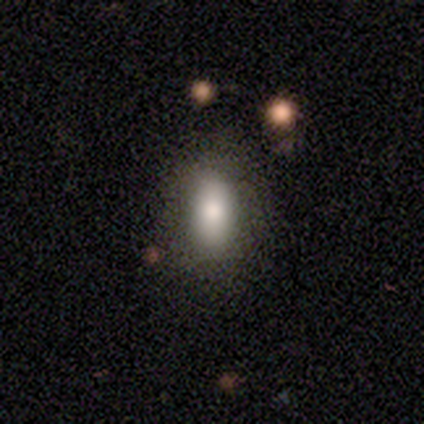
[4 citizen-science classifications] smooth-or-featured: featured or disk: 75% | smooth: 25% | star or artifact: 0%
  disk-edge-on: no: 100% | yes: 0%
    bar: strong: 33% (tied) | weak: 33% (tied) | no: 33% (tied)
    has-spiral-arms: no: 100% | yes: 0%
    bulge-size: dominant: 33% (tied) | large: 33% (tied) | moderate: 33% (tied) | small: 0% | none: 0%
  merging: none: 50% | minor disturbance: 25% | major disturbance: 25% | merger: 0%